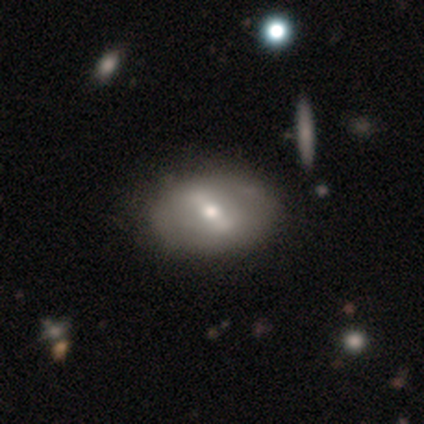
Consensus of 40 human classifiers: featured or disk 60%, smooth 35%, star or artifact 5%. Down the decision tree: edge-on disk — no (96%); bar — strong (48%, tied with weak); spiral arms — no (78%); bulge size — moderate (78%); merging — none (55%).